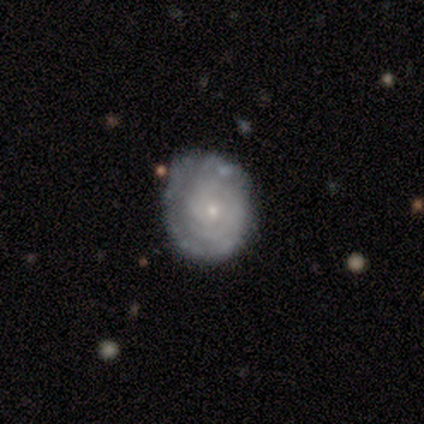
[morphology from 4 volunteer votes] Smooth or featured: featured or disk — 100%
Edge-on disk: no — 100%
Bar: no — 75% (weak — 25%)
Spiral arms: yes — 100%
Spiral winding: tight — 100%
Spiral arm count: can't tell — 75% (2 — 25%)
Bulge size: small — 50% (moderate — 25%)
Merging: none — 100%